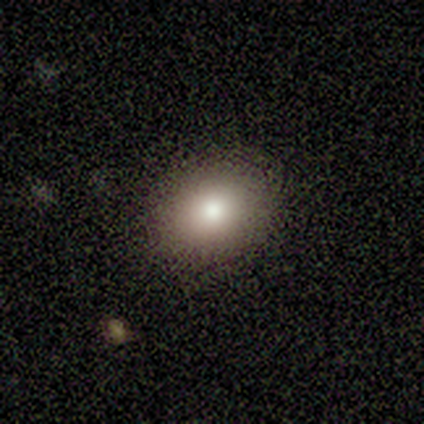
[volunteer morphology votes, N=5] Smooth or featured? 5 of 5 (100%) said smooth. How rounded? 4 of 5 (80%) said in between. Merging? 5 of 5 (100%) said none.